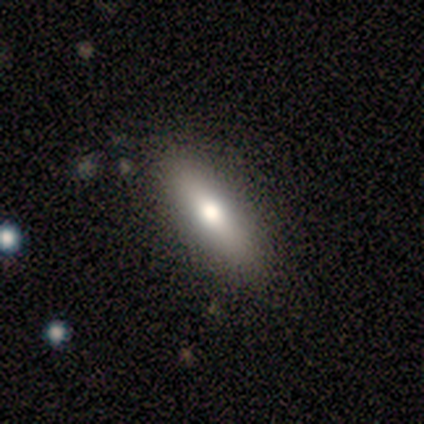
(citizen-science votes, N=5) smooth_or_featured: smooth (p=0.60) [alt: featured or disk p=0.40]
how_rounded: in between (p=0.67) [alt: cigar-shaped p=0.33]
merging: none (p=1.00)